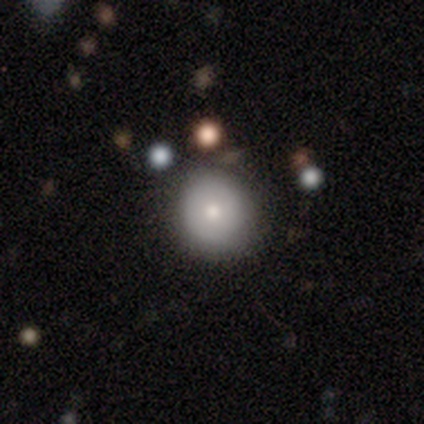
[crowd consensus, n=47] Smooth or featured? 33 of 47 (70%) said smooth. How rounded? 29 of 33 (88%) said round. Merging? 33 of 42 (79%) said none.